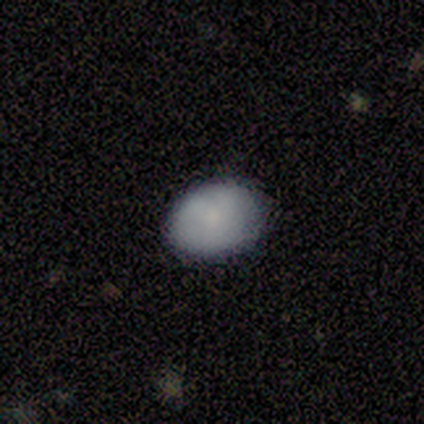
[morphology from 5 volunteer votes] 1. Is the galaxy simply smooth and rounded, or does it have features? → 100% smooth, 0% featured or disk, 0% star or artifact.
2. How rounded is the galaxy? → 100% in between, 0% round, 0% cigar-shaped.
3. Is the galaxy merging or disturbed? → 100% none, 0% minor disturbance, 0% major disturbance, 0% merger.